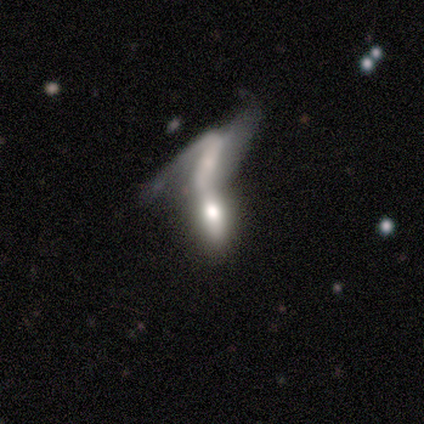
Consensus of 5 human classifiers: A featured or disk galaxy (40%, tied with star or artifact) with no bar (100%), no spiral arms (100%) and a large central bulge (50%, tied with none).

Vote fractions:
- Smooth or featured? featured or disk: 40% (tied) / star or artifact: 40% (tied) / smooth: 20%
- Edge-on disk? no: 100% / yes: 0%
- Bar? no: 100% / strong: 0% / weak: 0%
- Spiral arms? no: 100% / yes: 0%
- Bulge size? large: 50% (tied) / none: 50% (tied) / dominant: 0% / moderate: 0% / small: 0%
- Merging? merger: 67% / major disturbance: 33% / none: 0% / minor disturbance: 0%